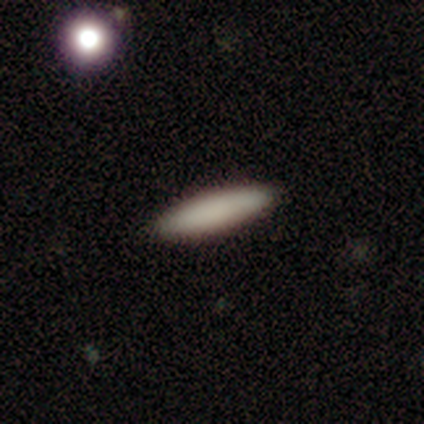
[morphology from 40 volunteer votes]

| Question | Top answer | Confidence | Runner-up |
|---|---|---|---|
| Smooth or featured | smooth | 82% | featured or disk (15%) |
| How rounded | cigar-shaped | 82% | in between (12%) |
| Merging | none | 97% | major disturbance (3%) |